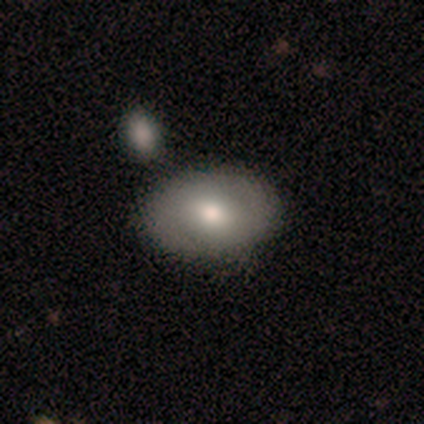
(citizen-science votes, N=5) Smooth or featured: smooth — 100%
How rounded: in between — 80% (round — 20%)
Merging: none — 40% (tied with merger — 40%)